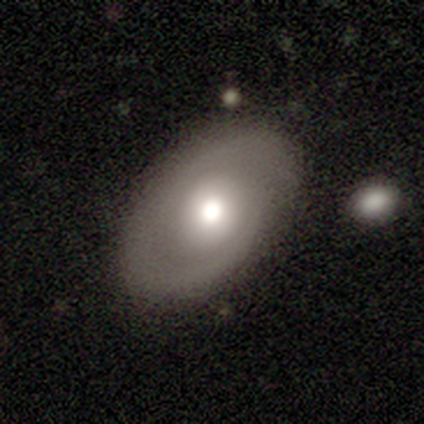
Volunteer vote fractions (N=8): Smooth or featured? 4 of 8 (50%, tied with featured or disk) said smooth. How rounded? 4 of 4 (100%) said in between. Merging? 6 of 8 (75%) said none.